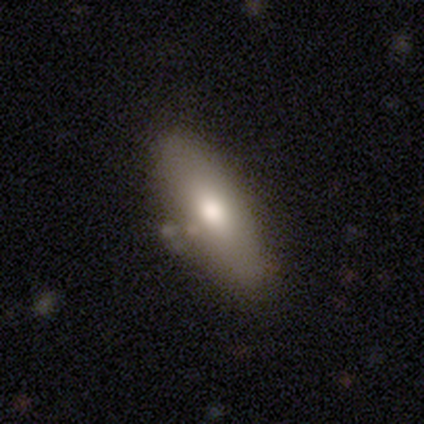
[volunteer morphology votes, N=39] Overall: smooth (74%). How rounded: in between (83%). Merging: none (68%).